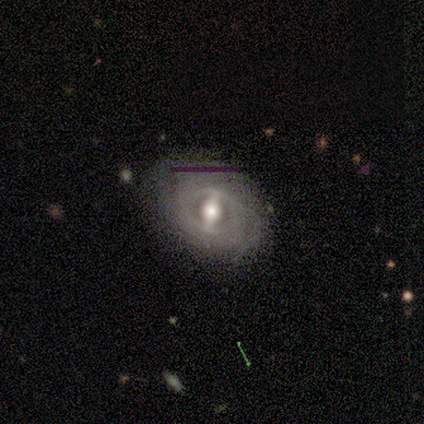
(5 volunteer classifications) A featured or disk galaxy (80%) with a strong bar (75%), no spiral arms (75%) and a moderate central bulge (100%). Merging: none (75%).